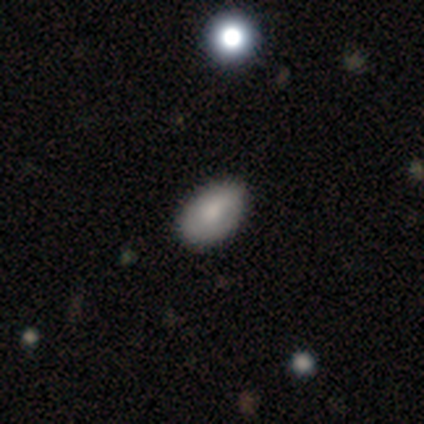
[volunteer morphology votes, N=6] A smooth galaxy with no disk features (50%, tied with featured or disk) that is in between round and cigar-shaped (67%). Merging: none (50%, tied with minor disturbance).